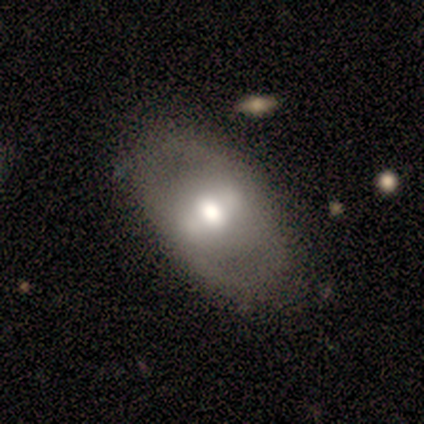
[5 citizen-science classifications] featured or disk 60%, smooth 40%, star or artifact 0%. Down the decision tree: edge-on disk — no (100%); bar — strong (67%); spiral arms — no (100%); bulge size — moderate (67%); merging — none (100%).